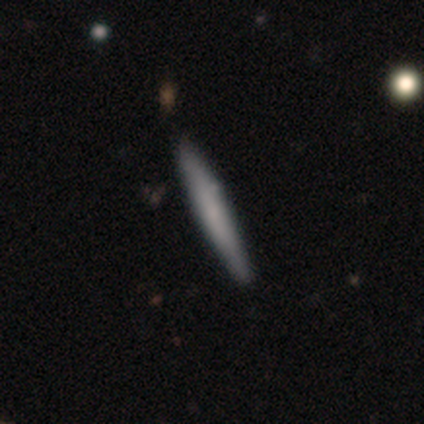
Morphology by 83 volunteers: type=smooth (70%); roundness=cigar-shaped (97%); merging=none (88%).